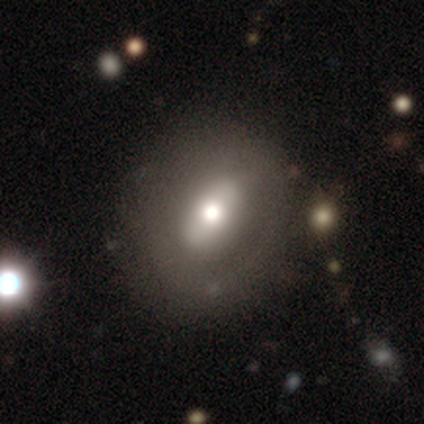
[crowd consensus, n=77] Morphology: type=smooth (48%); roundness=in between (70%); merging=none (42%).